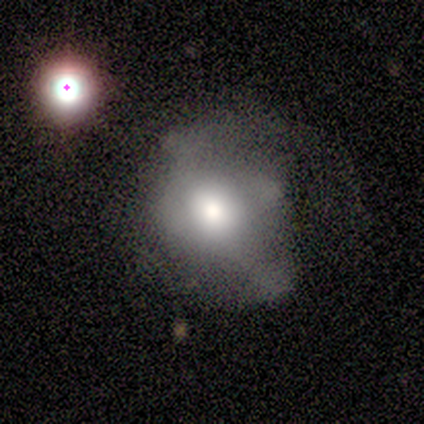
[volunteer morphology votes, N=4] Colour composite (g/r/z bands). It shows a smooth galaxy with no disk features (50%) that is round (50%, tied with in between). Merging: major disturbance (67%).